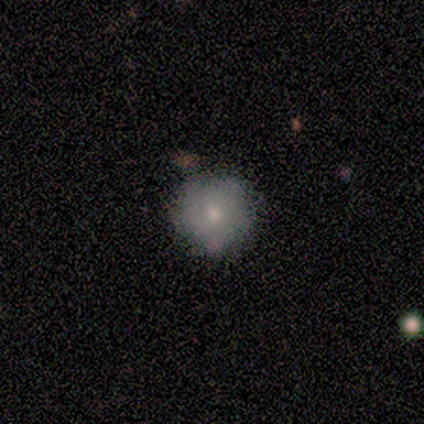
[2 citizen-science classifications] Smooth or featured: smooth — 100%
How rounded: round — 100%
Merging: none — 100%